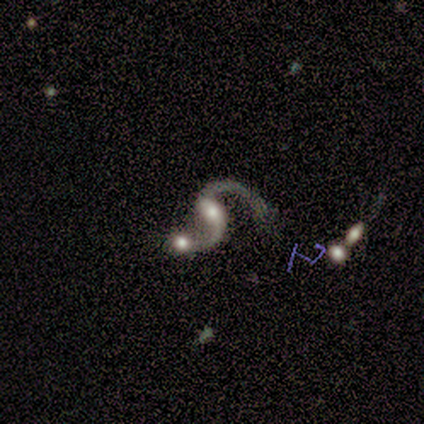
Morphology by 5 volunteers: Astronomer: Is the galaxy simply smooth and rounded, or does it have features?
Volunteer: featured or disk — 100%.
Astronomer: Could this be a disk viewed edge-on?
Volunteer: no — 100%.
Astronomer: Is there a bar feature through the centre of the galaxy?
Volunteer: weak — 80%.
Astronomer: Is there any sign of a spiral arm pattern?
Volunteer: yes — 100%.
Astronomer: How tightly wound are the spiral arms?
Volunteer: loose — 60% (runner-up: medium, 40%).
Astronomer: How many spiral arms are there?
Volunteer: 2 — 100%.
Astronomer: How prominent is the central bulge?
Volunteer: moderate — 40% (runner-up: large, 20%).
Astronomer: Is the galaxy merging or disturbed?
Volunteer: minor disturbance — 40%, tied with merger at 40%.